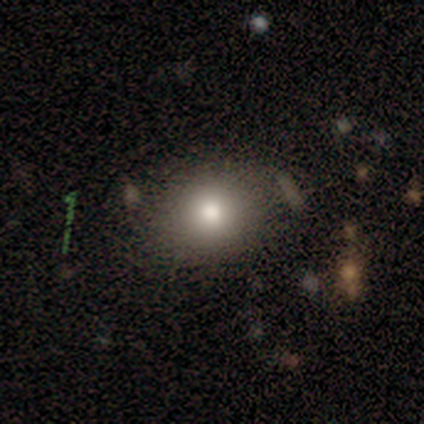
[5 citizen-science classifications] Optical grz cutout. It shows a smooth galaxy with no disk features (80%) that is round (50%, tied with in between). Merging: none (100%).